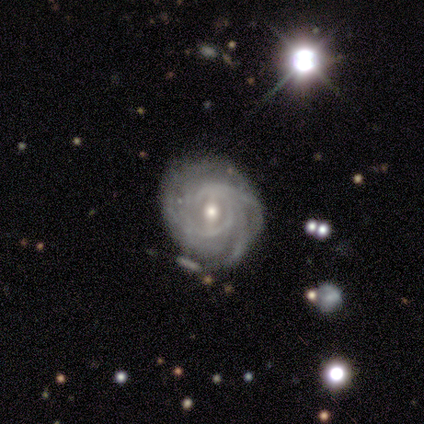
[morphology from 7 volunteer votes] A featured or disk galaxy (100%) with a weak bar (43%, tied with no), tight (100%) spiral arms (86%) and a moderate central bulge (57%).

Vote fractions:
- Smooth or featured? featured or disk: 100% / smooth: 0% / star or artifact: 0%
- Edge-on disk? no: 100% / yes: 0%
- Bar? weak: 43% (tied) / no: 43% (tied) / strong: 14%
- Spiral arms? yes: 86% / no: 14%
- Spiral winding? tight: 100% / medium: 0% / loose: 0%
- Spiral arm count? can't tell: 50% / 4: 33% / more than 4: 17% / 1: 0% / 2: 0% / 3: 0%
- Bulge size? moderate: 57% / small: 43% / dominant: 0% / large: 0% / none: 0%
- Merging? none: 71% / minor disturbance: 29% / major disturbance: 0% / merger: 0%